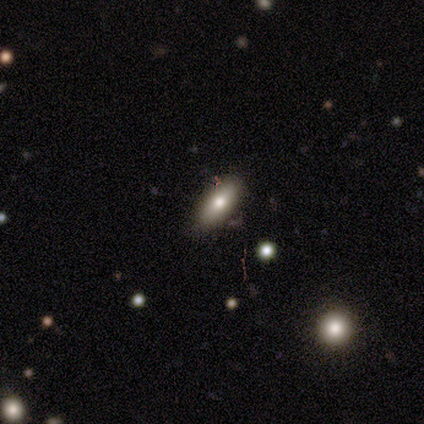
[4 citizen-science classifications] A smooth galaxy with no disk features (75%) that is cigar-shaped (67%). Merging: none (75%).